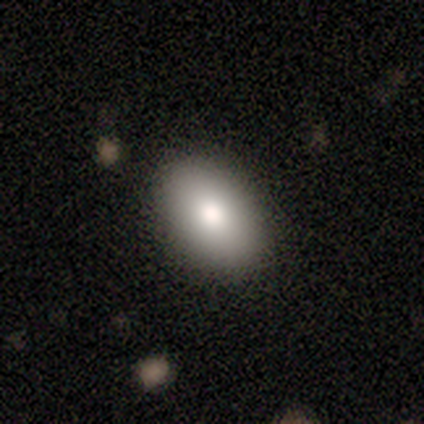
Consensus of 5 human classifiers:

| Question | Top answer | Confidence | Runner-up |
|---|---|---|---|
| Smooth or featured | smooth | 100% | — |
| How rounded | in between | 80% | round (20%) |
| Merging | none | 80% | minor disturbance (20%) |